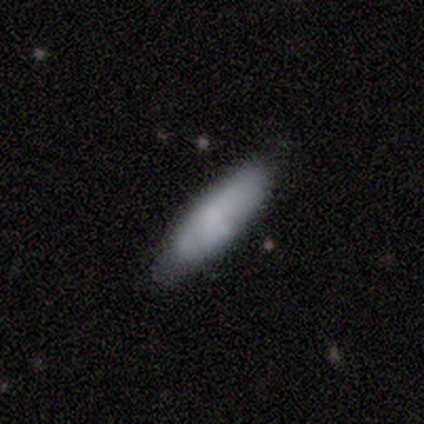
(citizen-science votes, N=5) Overall: smooth (60%; featured or disk 40%). How rounded: cigar-shaped (67%; in between 33%). Merging: none (100%).